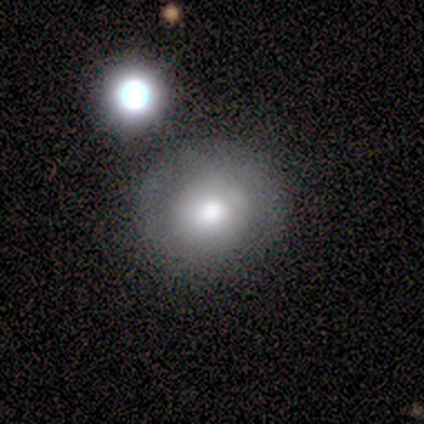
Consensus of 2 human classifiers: Overall: smooth (100%). How rounded: round (50%, tied with in between). Merging: none (100%).